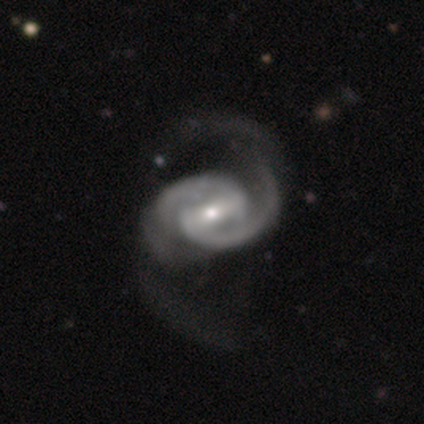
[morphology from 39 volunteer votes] Smooth or featured: featured or disk — 97% (smooth — 3%)
Edge-on disk: no — 97% (yes — 3%)
Bar: strong — 65% (weak — 24%)
Spiral arms: yes — 100%
Spiral winding: medium — 46% (loose — 35%)
Spiral arm count: 2 — 95% (4 — 5%)
Bulge size: moderate — 65% (small — 30%)
Merging: major disturbance — 36% (none — 26%)